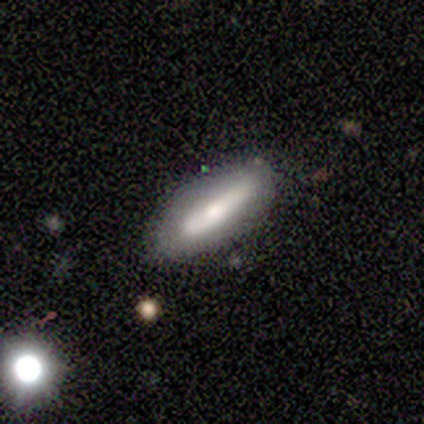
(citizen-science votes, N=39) Volunteers were most divided on "how rounded": cigar-shaped: 55%, in between: 45%, round: 0%. More confident: merging — none (57%); smooth or featured — smooth (56%).